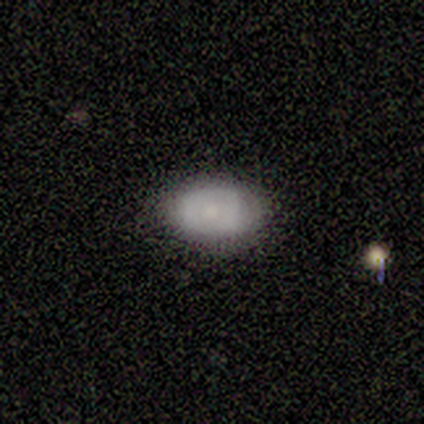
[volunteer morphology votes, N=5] This is likely a featured or disk galaxy (60%). It is likely not viewed edge-on (67%). Bar: clearly no (100%). Spiral arm pattern: clearly no (100%). Central bulge: clearly large (100%). Merging: likely none (60%).